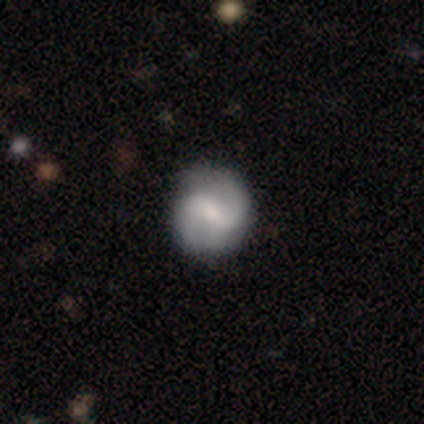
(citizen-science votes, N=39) This appears to be a featured or disk galaxy (85%) with a weak bar (42%), 2 (90%) medium (58%) spiral arms (94%) and a moderate central bulge (48%). Merging: none (68%).